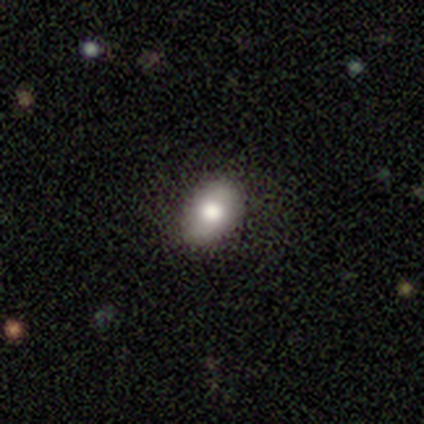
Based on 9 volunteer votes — A smooth galaxy with no disk features (78%) that is in between round and cigar-shaped (100%). Merging: none (88%).